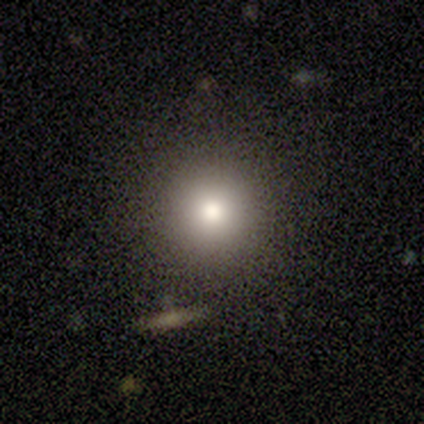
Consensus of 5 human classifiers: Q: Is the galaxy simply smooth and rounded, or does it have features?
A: smooth — 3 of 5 (60%).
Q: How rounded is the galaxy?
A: round — 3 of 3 (100%).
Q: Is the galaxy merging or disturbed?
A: none — 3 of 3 (100%).